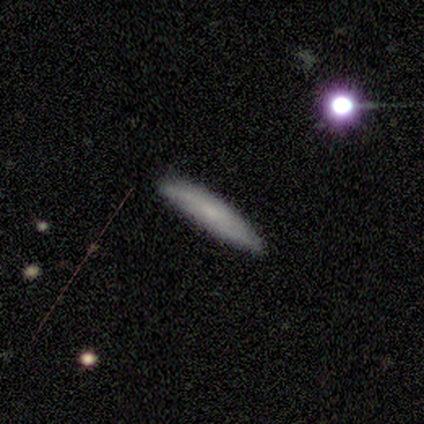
This appears to be a smooth galaxy with no disk features (80%) that is cigar-shaped (75%). Merging: none (100%).